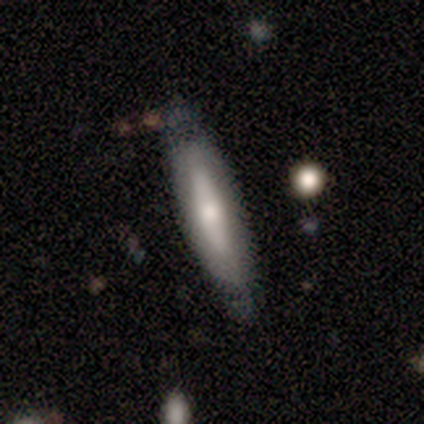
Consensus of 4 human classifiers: featured or disk 75%, smooth 25%, star or artifact 0%. Down the decision tree: edge-on disk — yes (67%); edge-on bulge — none (50%, tied with rounded); merging — none (100%).